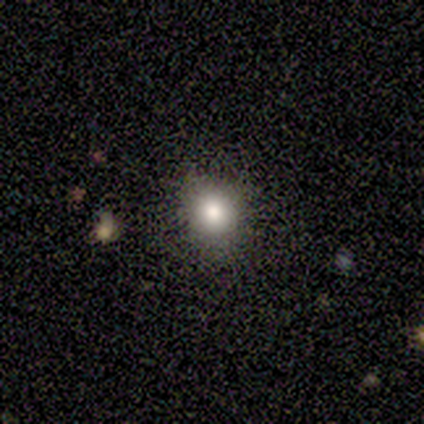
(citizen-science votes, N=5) Overall: smooth (80%). How rounded: round (100%). Merging: none (100%).